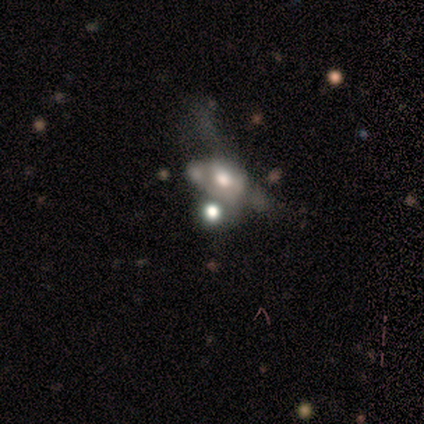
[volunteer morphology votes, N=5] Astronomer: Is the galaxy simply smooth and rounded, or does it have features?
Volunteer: featured or disk — 60% (runner-up: smooth, 40%).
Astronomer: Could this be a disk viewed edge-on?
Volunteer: no — 100%.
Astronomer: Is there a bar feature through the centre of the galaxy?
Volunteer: no — 100%.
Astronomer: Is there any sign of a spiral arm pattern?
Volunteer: no — 100%.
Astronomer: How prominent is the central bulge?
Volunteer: dominant — 33%, tied with large and moderate at 33%.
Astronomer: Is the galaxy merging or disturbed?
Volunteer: none — 40%, tied with merger at 40%.